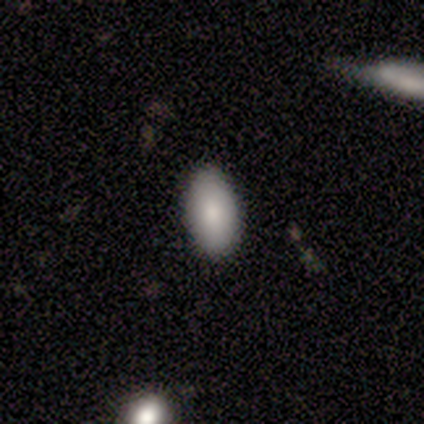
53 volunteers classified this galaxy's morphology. Overall: smooth (98%). How rounded: in between (98%). Merging: none (90%).